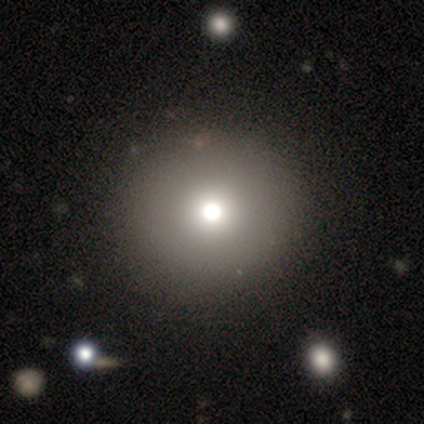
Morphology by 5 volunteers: Smooth or featured? 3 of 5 (60%) said star or artifact.